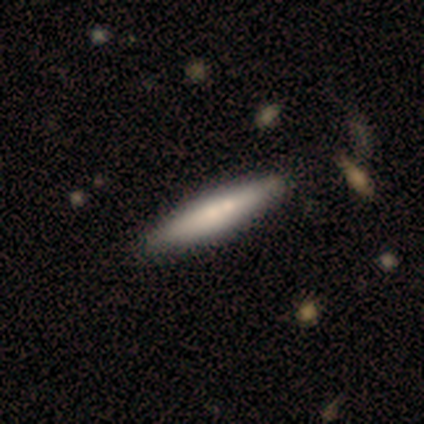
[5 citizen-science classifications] smooth 80%, featured or disk 20%, star or artifact 0%. Down the decision tree: how rounded — cigar-shaped (100%); merging — none (40%, tied with merger).